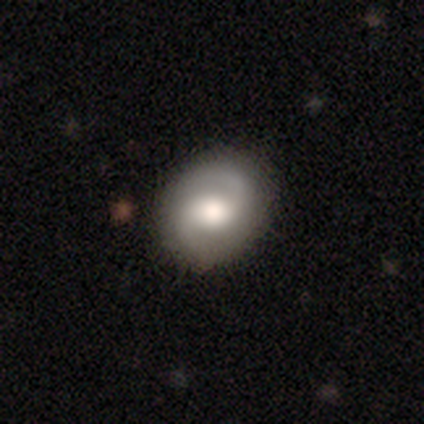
This appears to be a featured or disk galaxy (80%) with no bar (67%), 2 (100%) medium (67%) spiral arms (100%) and a moderate central bulge (67%). Merging: none (40%, tied with minor disturbance).